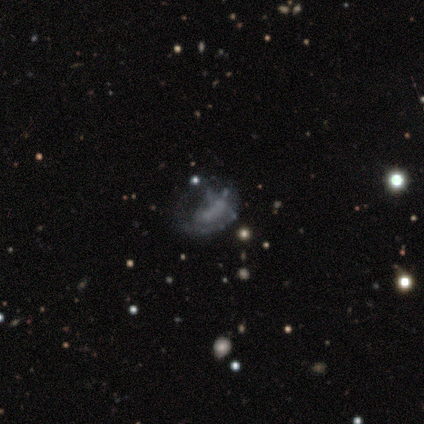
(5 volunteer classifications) Smooth or featured: smooth — 40% (tied with featured or disk — 40%)
How rounded: in between — 100%
Merging: none — 50% (major disturbance — 25%)